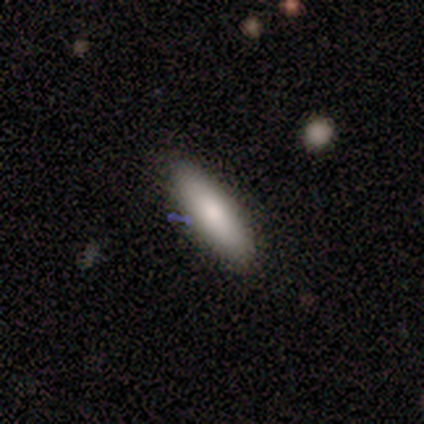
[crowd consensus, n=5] This appears to be a smooth galaxy with no disk features (80%) that is in between round and cigar-shaped (50%, tied with cigar-shaped). Merging: none (80%).